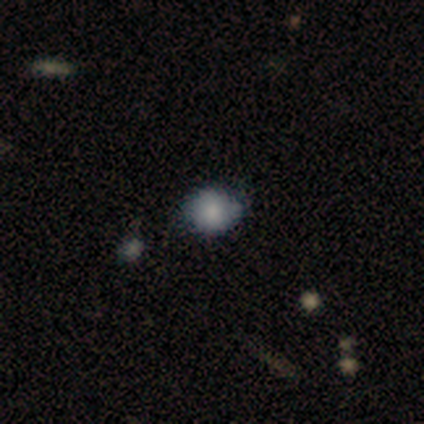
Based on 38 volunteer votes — Smooth or featured? 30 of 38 (79%) said smooth. How rounded? 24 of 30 (80%) said round. Merging? 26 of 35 (74%) said none.